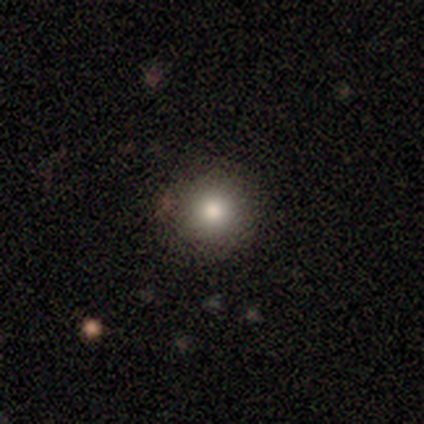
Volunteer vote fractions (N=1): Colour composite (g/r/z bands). It shows a smooth galaxy with no disk features (100%) that is round (100%). Merging: none (100%).